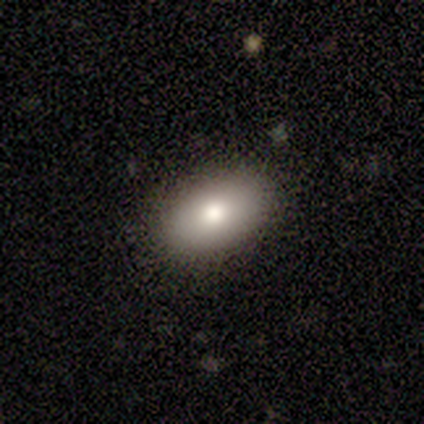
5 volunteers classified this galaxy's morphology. Smooth or featured: smooth — 80% (star or artifact — 20%)
How rounded: in between — 100%
Merging: none — 100%